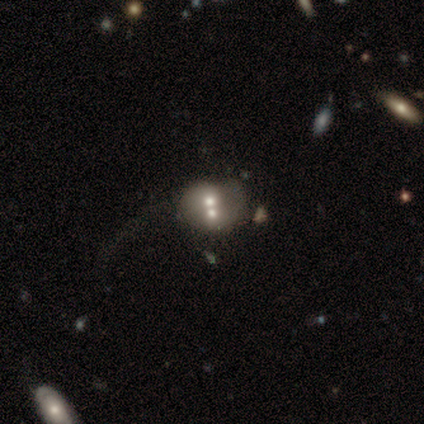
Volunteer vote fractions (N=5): Smooth or featured? featured or disk (60%)
Edge-on disk? no (100%)
Bar? no (100%)
Spiral arms? no (100%)
Bulge size? moderate (33%, tied with small and none)
Merging? merger (60%)